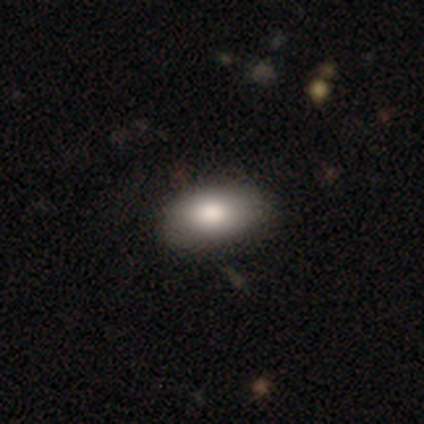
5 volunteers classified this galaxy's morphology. Smooth or featured: smooth — 80% (star or artifact — 20%)
How rounded: in between — 75% (round — 25%)
Merging: none — 75% (minor disturbance — 25%)